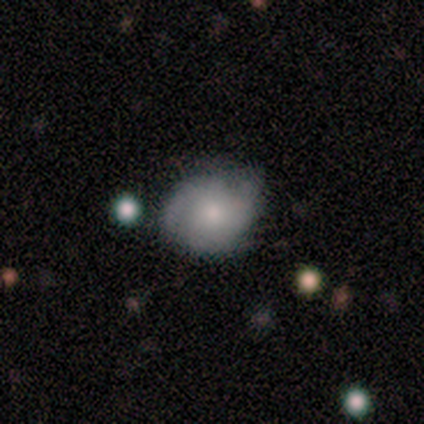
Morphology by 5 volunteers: Volunteers were most divided on "smooth or featured": smooth: 60%, star or artifact: 40%, featured or disk: 0%. More confident: how rounded — round (67%); merging — none (67%).